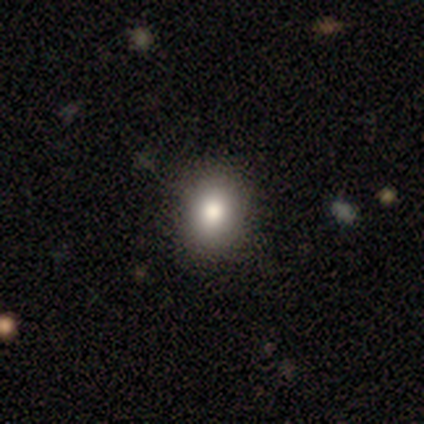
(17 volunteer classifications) Smooth or featured? smooth (71%)
How rounded? round (75%)
Merging? none (92%)